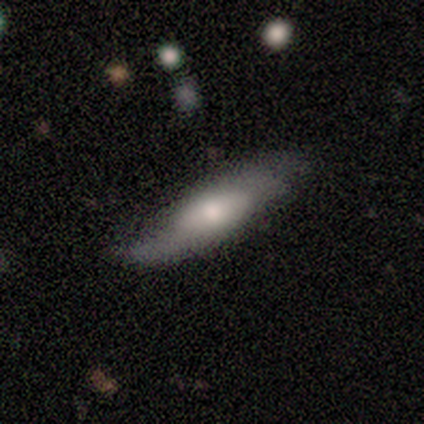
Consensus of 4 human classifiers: Overall: smooth (50%, tied with featured or disk). How rounded: in between (50%, tied with cigar-shaped). Merging: minor disturbance (50%; none 25%).